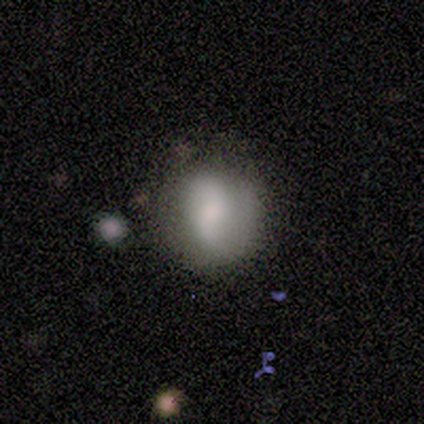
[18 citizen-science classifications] smooth 56%, featured or disk 39%, star or artifact 6%. Down the decision tree: how rounded — round (80%); merging — none (47%, tied with minor disturbance).